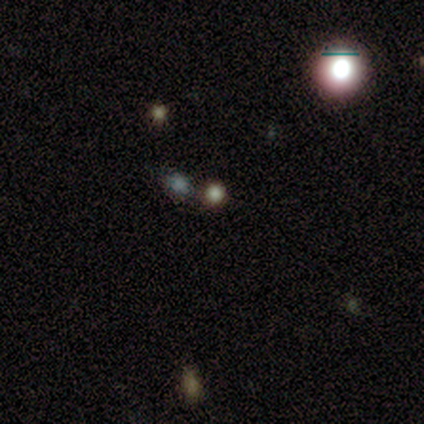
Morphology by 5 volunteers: smooth_or_featured: smooth (p=0.40) [tied with: star or artifact p=0.40]
how_rounded: round (p=0.50) [tied with: in between p=0.50]
merging: none (p=1.00)